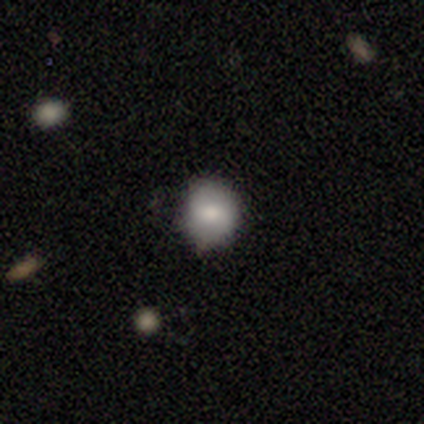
Smooth or featured? 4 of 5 (80%) said smooth. How rounded? 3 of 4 (75%) said round. Merging? 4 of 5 (80%) said none.